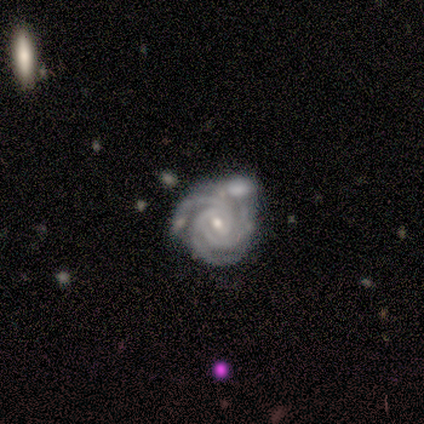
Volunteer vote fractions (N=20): featured or disk 90%, smooth 10%, star or artifact 0%. Down the decision tree: edge-on disk — no (100%); bar — weak (50%); spiral arms — yes (100%); spiral arm count — 3 (72%); spiral winding — tight (72%); bulge size — small (72%); merging — none (55%).